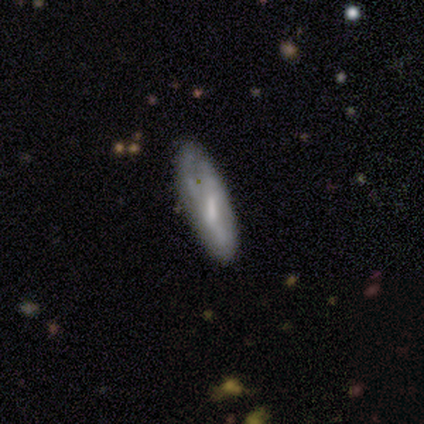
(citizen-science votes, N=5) Smooth or featured? featured or disk (80%)
Edge-on disk? no (100%)
Bar? weak (50%)
Spiral arms? no (75%)
Bulge size? small (50%)
Merging? none (80%)